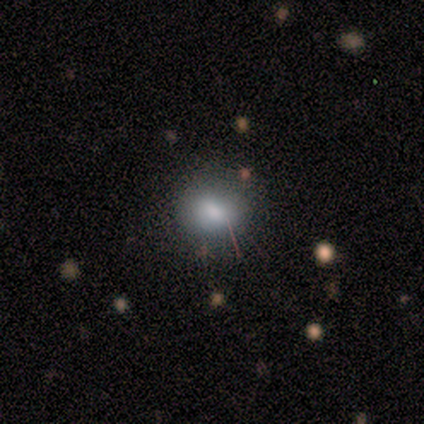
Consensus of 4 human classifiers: This appears to be a star or artifact, not a galaxy (50%).